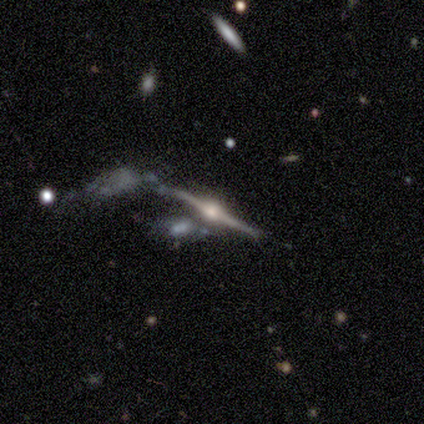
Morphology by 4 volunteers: featured or disk 75%, star or artifact 25%, smooth 0%. Down the decision tree: edge-on disk — yes (100%); edge-on bulge — rounded (100%); merging — none (33%, tied with minor disturbance and merger).